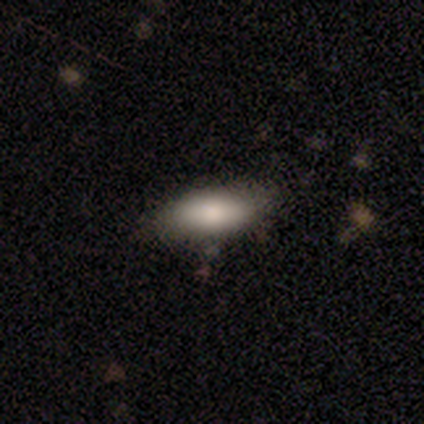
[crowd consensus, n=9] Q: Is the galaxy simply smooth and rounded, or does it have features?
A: smooth — 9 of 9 (100%).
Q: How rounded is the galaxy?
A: in between — 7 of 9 (78%).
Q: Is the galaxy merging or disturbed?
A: none — 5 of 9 (56%).